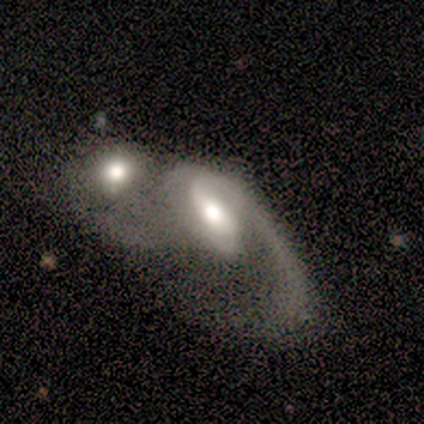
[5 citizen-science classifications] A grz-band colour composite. It shows a featured or disk galaxy (100%) with a weak bar (60%), 1 (60%) loose (60%) spiral arms (100%) and a moderate central bulge (100%). Merging: merger (100%).